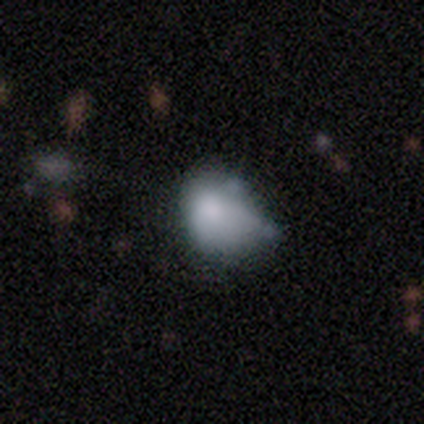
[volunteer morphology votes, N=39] smooth_or_featured: smooth (p=0.54) [alt: featured or disk p=0.36]
how_rounded: in between (p=0.52) [alt: round p=0.48]
merging: minor disturbance (p=0.37) [alt: major disturbance p=0.29]